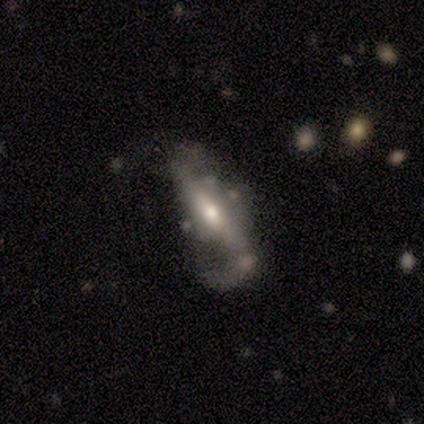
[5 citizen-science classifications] Q: Smooth or featured?
A: featured or disk (80%); runner-up: smooth (20%)
Q: Edge-on disk?
A: no (100%)
Q: Bar?
A: strong (75%); runner-up: no (25%)
Q: Spiral arms?
A: yes (100%)
Q: Spiral winding?
A: loose (75%); runner-up: medium (25%)
Q: Spiral arm count?
A: 2 (75%); runner-up: 1 (25%)
Q: Bulge size?
A: moderate (100%)
Q: Merging?
A: minor disturbance (40%); tied with: major disturbance (40%)